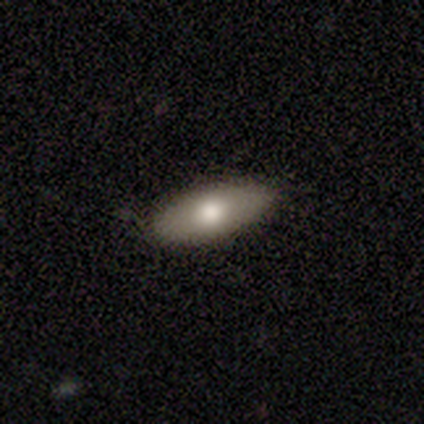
Smooth or featured? 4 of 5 (80%) said featured or disk. Edge-on disk? 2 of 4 (50%, tied with no) said yes. Edge-on bulge? 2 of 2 (100%) said rounded. Merging? 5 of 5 (100%) said none.